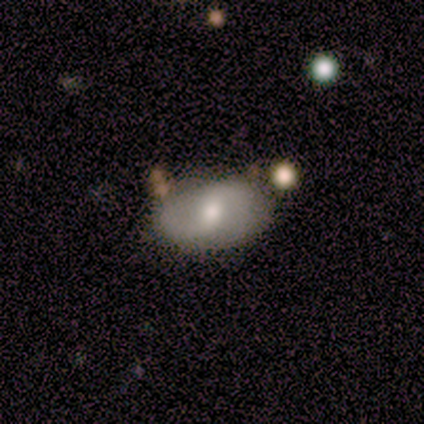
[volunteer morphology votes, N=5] smooth 60%, featured or disk 40%, star or artifact 0%. Down the decision tree: how rounded — in between (100%); merging — none (60%).